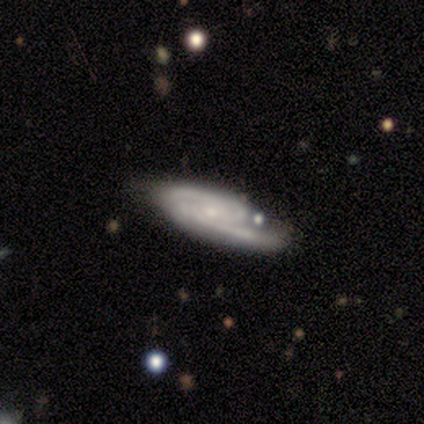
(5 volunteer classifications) Volunteers were most divided on "spiral winding" (2-way tie): tight: 50%, medium: 50%, loose: 0%; "spiral arm count" (2-way tie): 2: 50%, can't tell: 50%, 1: 0%, 3: 0%, 4: 0%, more than 4: 0%. More confident: edge-on disk — no (100%); bar — no (100%); spiral arms — yes (100%); bulge size — small (100%); smooth or featured — featured or disk (80%); merging — none (60%).